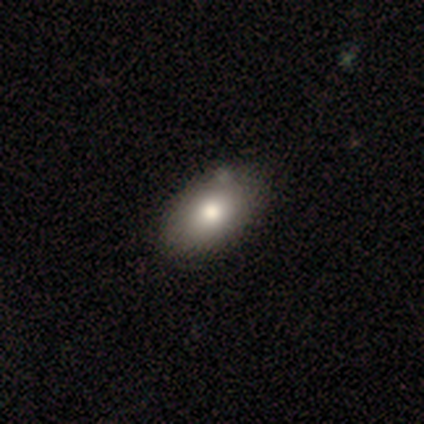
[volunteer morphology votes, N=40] smooth-or-featured: smooth: 82% | featured or disk: 15% | star or artifact: 2%
  how-rounded: in between: 94% | round: 6% | cigar-shaped: 0%
  merging: none: 49% | minor disturbance: 21% | merger: 3% | major disturbance: 0%